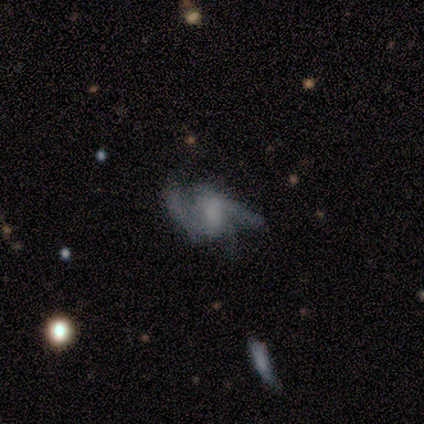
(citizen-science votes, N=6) featured or disk 100%, smooth 0%, star or artifact 0%. Down the decision tree: edge-on disk — no (100%); bar — weak (50%); spiral arms — yes (83%); spiral arm count — 2 (40%, tied with 3); spiral winding — loose (60%); bulge size — moderate (67%); merging — none (50%).